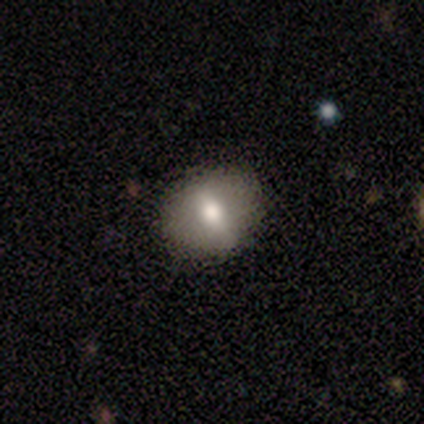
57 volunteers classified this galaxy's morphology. Smooth or featured? 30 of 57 (53%) said smooth. How rounded? 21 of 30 (70%) said round. Merging? 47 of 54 (87%) said none.